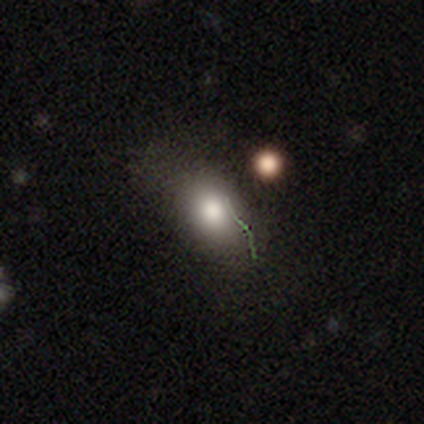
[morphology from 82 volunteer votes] smooth-or-featured: smooth: 63% | star or artifact: 20% | featured or disk: 17%
  how-rounded: in between: 83% | round: 15% | cigar-shaped: 2%
  merging: none: 58% | minor disturbance: 30% | major disturbance: 12% | merger: 0%